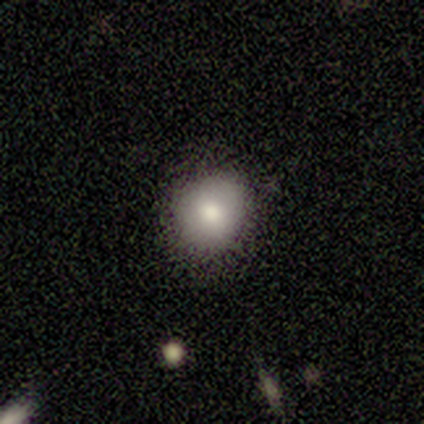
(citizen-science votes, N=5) smooth-or-featured: smooth: 100% | featured or disk: 0% | star or artifact: 0%
  how-rounded: round: 80% | in between: 20% | cigar-shaped: 0%
  merging: none: 100% | minor disturbance: 0% | major disturbance: 0% | merger: 0%